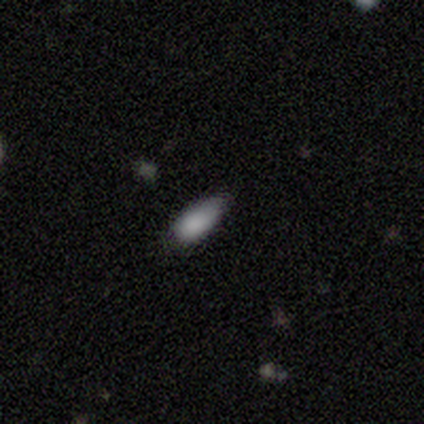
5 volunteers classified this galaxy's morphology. Smooth or featured?
  - smooth: 80% *
  - star or artifact: 20%
  - featured or disk: 0%
How rounded?
  - in between: 100% *
  - round: 0%
  - cigar-shaped: 0%
Merging?
  - minor disturbance: 50% *
  - none: 25%
  - merger: 25%
  - major disturbance: 0%